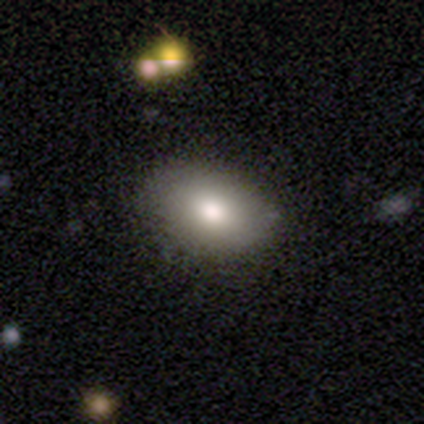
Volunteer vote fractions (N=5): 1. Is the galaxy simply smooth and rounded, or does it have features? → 80% smooth, 20% featured or disk, 0% star or artifact.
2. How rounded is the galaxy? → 50% in between, 25% round, 25% cigar-shaped.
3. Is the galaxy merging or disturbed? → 60% none, 40% minor disturbance, 0% major disturbance, 0% merger.